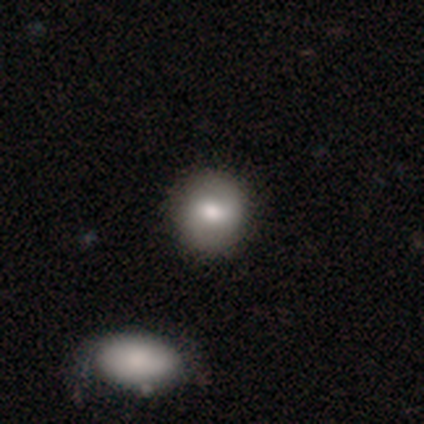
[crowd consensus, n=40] A smooth galaxy with no disk features (70%) that is round (89%). Merging: none (80%).